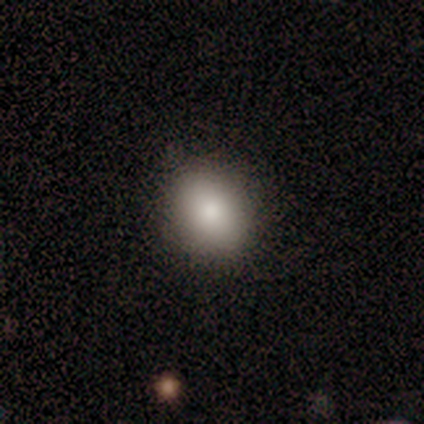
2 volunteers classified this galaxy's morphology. Smooth or featured? 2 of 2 (100%) said smooth. How rounded? 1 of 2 (50%, tied with in between) said round. Merging? 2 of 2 (100%) said none.